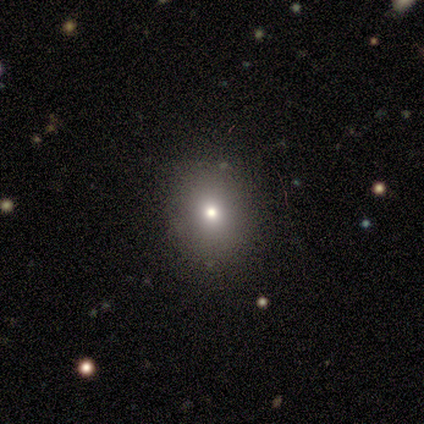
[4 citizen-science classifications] Volunteers were most divided on "how rounded": round: 75%, in between: 25%, cigar-shaped: 0%. More confident: smooth or featured — smooth (100%); merging — none (100%).